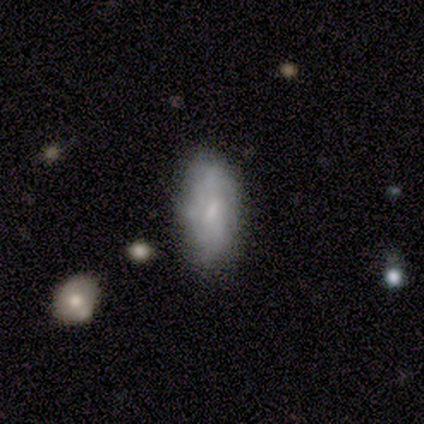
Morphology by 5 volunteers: Smooth or featured?
  - smooth: 40% * (tied)
  - featured or disk: 40% * (tied)
  - star or artifact: 20%
How rounded?
  - in between: 100% *
  - round: 0%
  - cigar-shaped: 0%
Merging?
  - none: 100% *
  - minor disturbance: 0%
  - major disturbance: 0%
  - merger: 0%